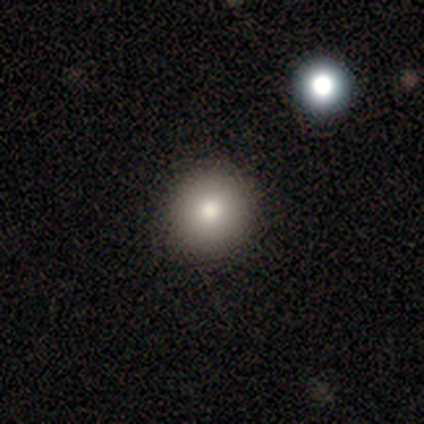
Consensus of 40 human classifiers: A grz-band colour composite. It shows a smooth galaxy with no disk features (65%) that is round (96%). Merging: none (94%).